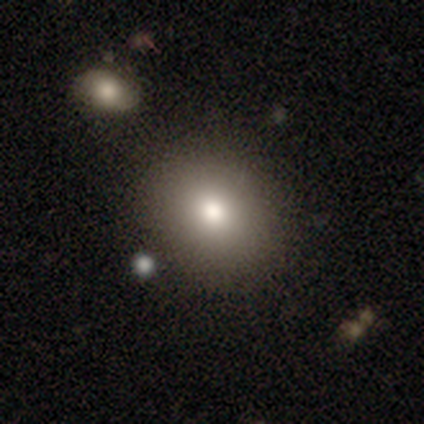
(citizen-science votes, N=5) smooth-or-featured: smooth: 80% | star or artifact: 20% | featured or disk: 0%
  how-rounded: in between: 75% | round: 25% | cigar-shaped: 0%
  merging: none: 100% | minor disturbance: 0% | major disturbance: 0% | merger: 0%